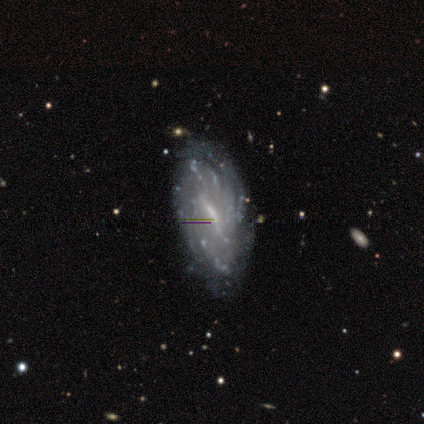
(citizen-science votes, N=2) A featured or disk galaxy (100%) with a strong bar (50%, tied with no), 2 (50%, tied with can't tell) tight (50%, tied with medium) spiral arms (100%) and a dominant central bulge (50%, tied with small). Merging: none (50%, tied with major disturbance).